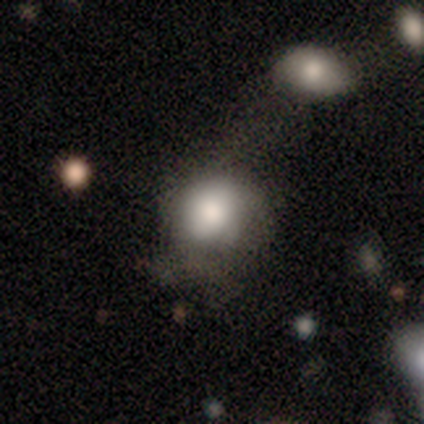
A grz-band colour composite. It shows a smooth galaxy with no disk features (80%) that is round (88%). Merging: none (33%, tied with major disturbance).